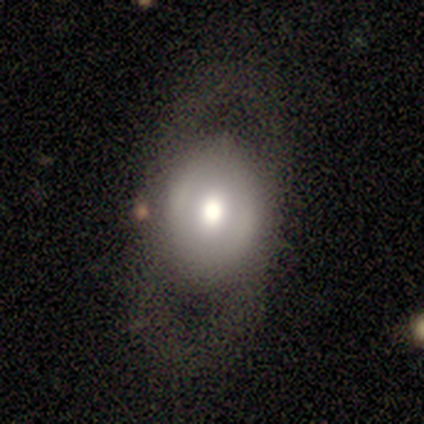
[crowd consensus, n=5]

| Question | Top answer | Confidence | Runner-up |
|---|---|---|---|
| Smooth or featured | featured or disk | 60% | smooth (40%) |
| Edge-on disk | no | 100% | — |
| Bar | no | 67% | weak (33%) |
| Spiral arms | no | 67% | yes (33%) |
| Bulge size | moderate | 67% | large (33%) |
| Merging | major disturbance | 60% | none (40%) |